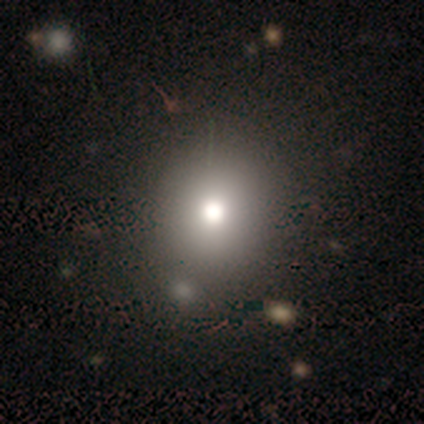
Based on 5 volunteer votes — This is likely a smooth galaxy (60%). How rounded: likely in between (67%). Merging: likely none (75%).